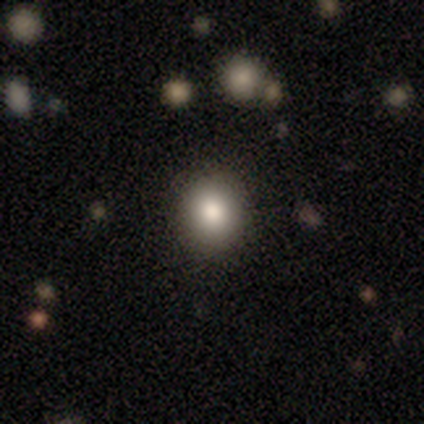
smooth 80%, star or artifact 20%, featured or disk 0%. Down the decision tree: how rounded — round (50%, tied with in between); merging — none (75%).